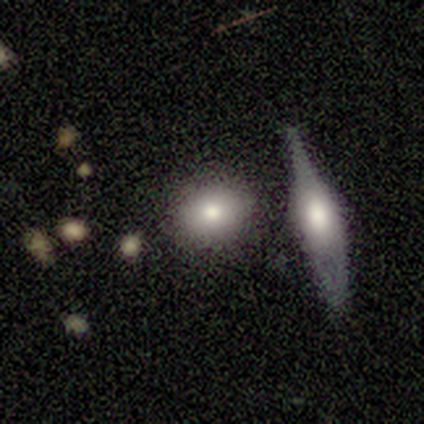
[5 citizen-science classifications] Q: Smooth or featured?
A: smooth (80%); runner-up: featured or disk (20%)
Q: How rounded?
A: round (75%); runner-up: in between (25%)
Q: Merging?
A: none (100%)